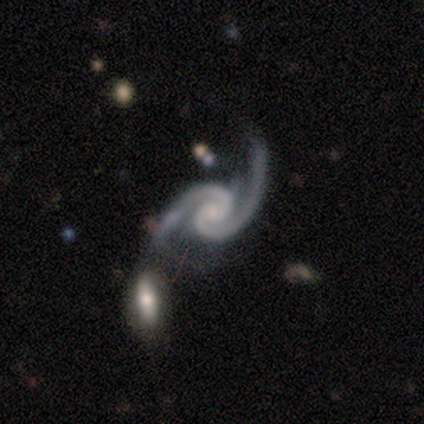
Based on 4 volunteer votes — Volunteers were most divided on "bar": no: 50%, strong: 25%, weak: 25%. More confident: smooth or featured — featured or disk (100%); edge-on disk — no (100%); spiral arms — yes (100%); spiral arm count — 2 (100%); spiral winding — loose (50%); bulge size — small (50%); merging — none (50%).